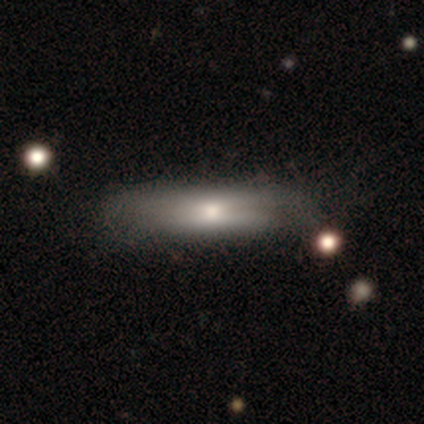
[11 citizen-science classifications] A smooth galaxy with no disk features (73%) that is cigar-shaped (75%).

Vote fractions:
- Smooth or featured? smooth: 73% / featured or disk: 18% / star or artifact: 9%
- How rounded? cigar-shaped: 75% / in between: 25% / round: 0%
- Merging? none: 70% / minor disturbance: 20% / major disturbance: 10% / merger: 0%